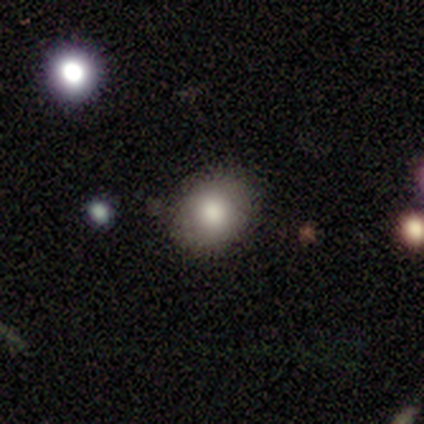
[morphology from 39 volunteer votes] type=smooth (82%); roundness=round (50%, tied with in between); merging=none (87%).